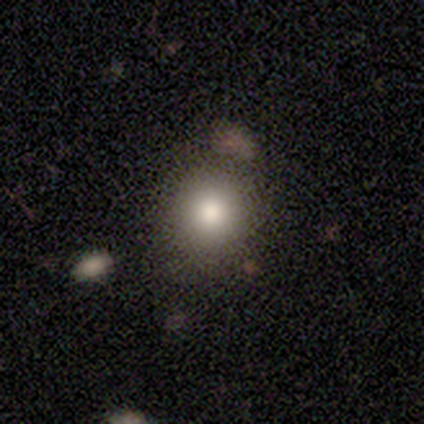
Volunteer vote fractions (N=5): A smooth galaxy with no disk features (60%) that is round (100%).

Vote fractions:
- Smooth or featured? smooth: 60% / featured or disk: 40% / star or artifact: 0%
- How rounded? round: 100% / in between: 0% / cigar-shaped: 0%
- Merging? none: 100% / minor disturbance: 0% / major disturbance: 0% / merger: 0%